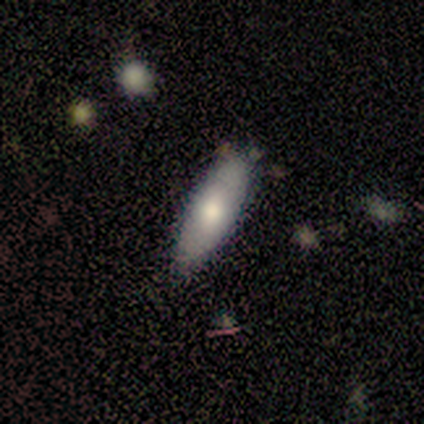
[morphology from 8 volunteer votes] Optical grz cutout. It shows a smooth galaxy with no disk features (75%) that is in between round and cigar-shaped (83%). Merging: none (86%).